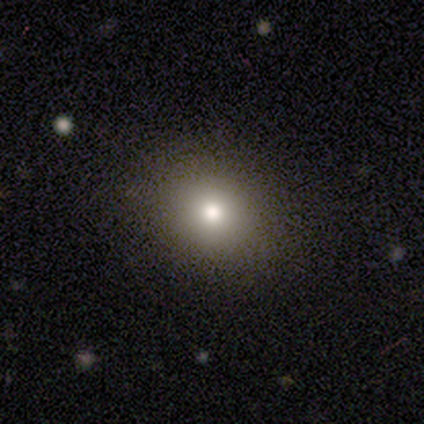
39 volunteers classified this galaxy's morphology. smooth 90%, featured or disk 8%, star or artifact 3%. Down the decision tree: how rounded — round (66%); merging — none (55%).